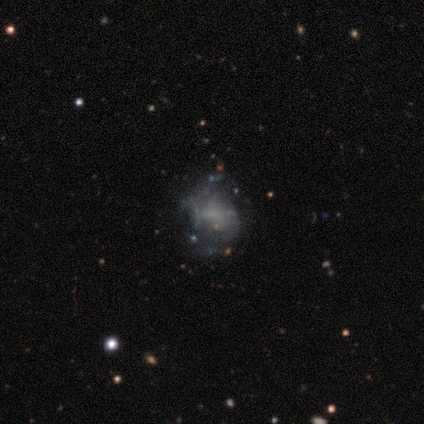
Q: Smooth or featured?
A: smooth (50%); tied with: featured or disk (50%)
Q: How rounded?
A: round (50%); tied with: in between (50%)
Q: Merging?
A: none (50%); runner-up: minor disturbance (25%)